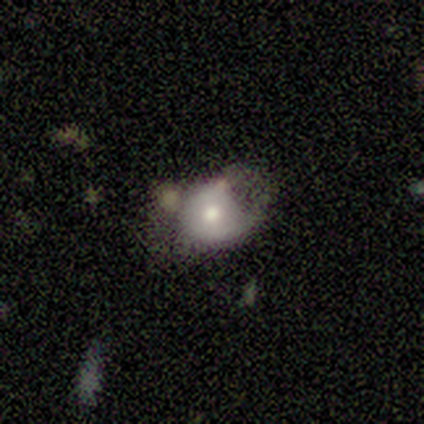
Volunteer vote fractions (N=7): A smooth galaxy with no disk features (86%) that is round (83%). Merging: minor disturbance (43%).